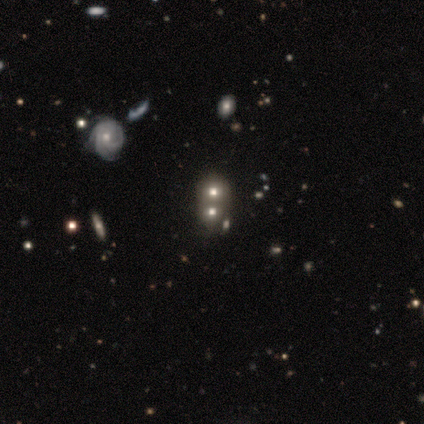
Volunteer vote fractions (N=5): Morphology: type=featured or disk (40%, tied with star or artifact); edge-on=no (100%); bar=no (100%); spiral arms=yes (50%, tied with no); winding=tight (100%); arm count=3 (100%); bulge=moderate (50%, tied with small); merging=minor disturbance (67%).